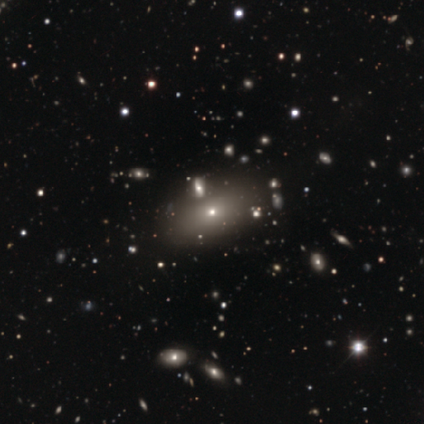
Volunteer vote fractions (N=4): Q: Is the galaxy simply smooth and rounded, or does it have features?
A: smooth — 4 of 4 (100%).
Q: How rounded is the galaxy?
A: round — 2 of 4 (50%, tied with in between).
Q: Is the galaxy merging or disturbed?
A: none — 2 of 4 (50%).